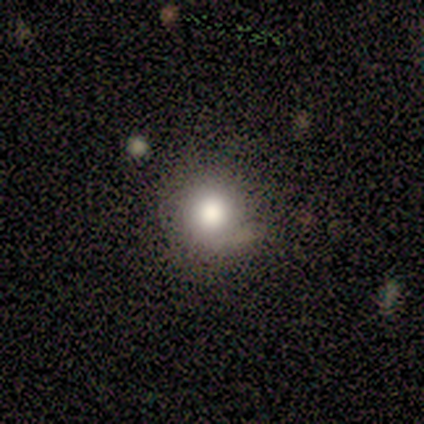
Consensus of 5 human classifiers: A smooth galaxy with no disk features (100%) that is round (60%). Merging: minor disturbance (60%).